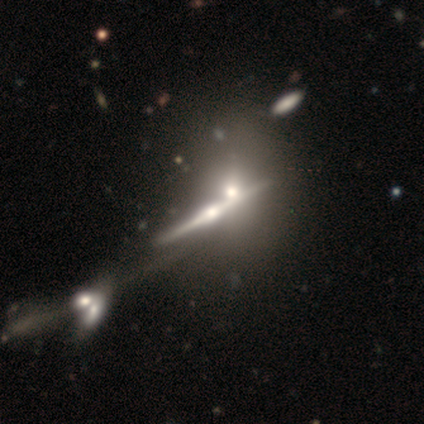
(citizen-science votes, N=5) featured or disk 100%, smooth 0%, star or artifact 0%. Down the decision tree: edge-on disk — yes (80%); edge-on bulge — rounded (75%); merging — minor disturbance (40%, tied with merger).